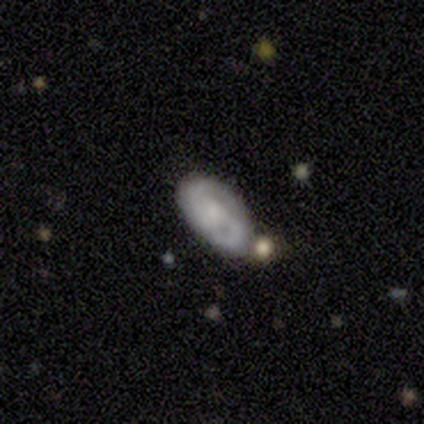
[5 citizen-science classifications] smooth_or_featured: featured or disk (p=0.80) [alt: star or artifact p=0.20]
disk_edge_on: no (p=1.00)
bar: weak (p=0.50) [tied with: no p=0.50]
has_spiral_arms: yes (p=0.75) [alt: no p=0.25]
spiral_winding: medium (p=0.67) [alt: loose p=0.33]
spiral_arm_count: 2 (p=0.67) [alt: 3 p=0.33]
bulge_size: small (p=0.50) [alt: moderate p=0.25]
merging: none (p=0.50) [alt: minor disturbance p=0.25]